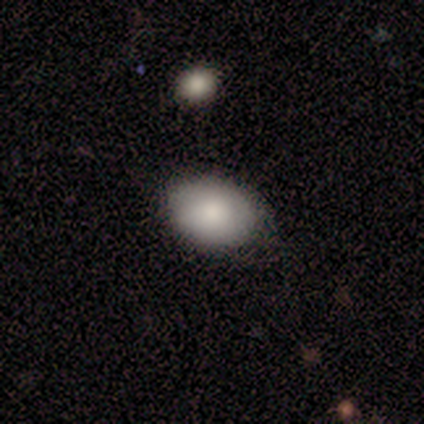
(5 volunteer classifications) Morphology: type=smooth (80%); roundness=in between (100%); merging=none (60%).